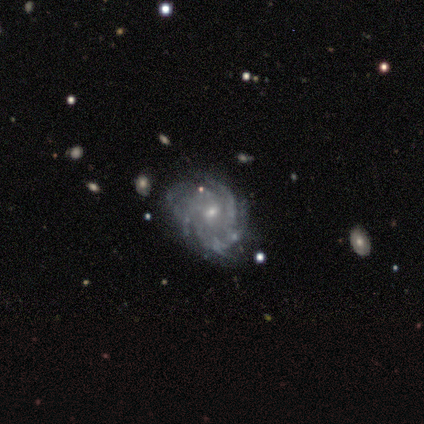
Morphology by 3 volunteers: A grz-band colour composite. It shows a featured or disk galaxy (100%) with a weak bar (50%, tied with no), 2 (50%, tied with 3) tight (100%) spiral arms (100%) and a moderate central bulge (50%, tied with small). Merging: none (100%).